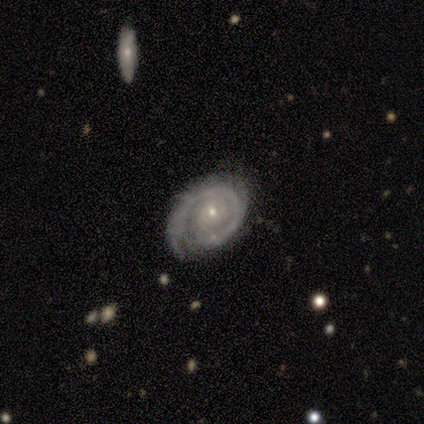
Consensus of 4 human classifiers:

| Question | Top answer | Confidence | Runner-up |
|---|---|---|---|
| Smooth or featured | featured or disk | 100% | — |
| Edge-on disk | no | 75% | yes (25%) |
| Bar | no | 67% | weak (33%) |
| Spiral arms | yes | 100% | — |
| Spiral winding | tight | 67% | medium (33%) |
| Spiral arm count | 1 | 33% | tied: 2 (33%), can't tell (33%) |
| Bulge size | small | 67% | moderate (33%) |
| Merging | none | 75% | major disturbance (25%) |